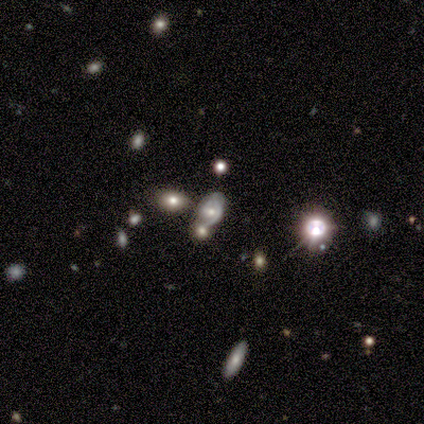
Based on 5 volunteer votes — Smooth or featured? featured or disk (40%, tied with star or artifact)
Edge-on disk? no (100%)
Bar? weak (50%, tied with no)
Spiral arms? yes (50%, tied with no)
Spiral winding? medium (100%)
Spiral arm count? can't tell (100%)
Bulge size? moderate (50%, tied with none)
Merging? none (100%)